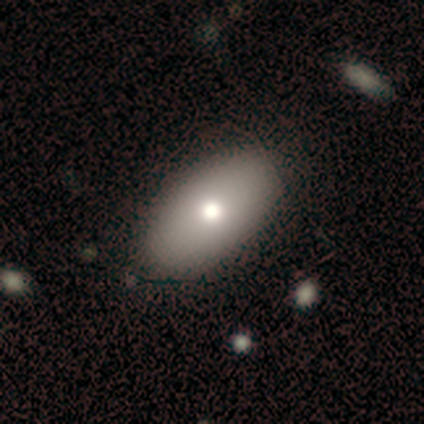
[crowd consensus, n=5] This is likely a smooth galaxy (60%). How rounded: clearly in between (100%). Merging: clearly none (100%).